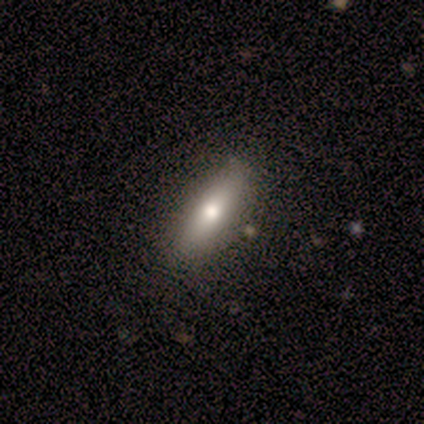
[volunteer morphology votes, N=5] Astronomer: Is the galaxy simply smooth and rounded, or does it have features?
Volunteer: featured or disk — 60% (runner-up: smooth, 40%).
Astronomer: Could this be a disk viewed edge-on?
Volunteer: yes — 100%.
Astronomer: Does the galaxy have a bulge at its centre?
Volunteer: rounded — 100%.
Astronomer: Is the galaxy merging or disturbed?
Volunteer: none — 100%.